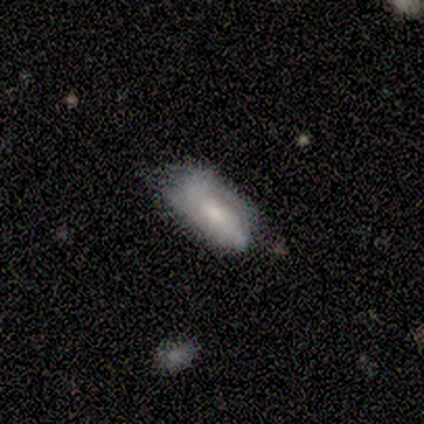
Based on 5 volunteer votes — Smooth or featured?
  - featured or disk: 60% *
  - smooth: 40%
  - star or artifact: 0%
Edge-on disk?
  - no: 100% *
  - yes: 0%
Bar?
  - no: 67% *
  - strong: 33%
  - weak: 0%
Spiral arms?
  - yes: 67% *
  - no: 33%
Spiral winding?
  - tight: 50% * (tied)
  - medium: 50% * (tied)
  - loose: 0%
Spiral arm count?
  - can't tell: 100% *
  - 1: 0%
  - 2: 0%
  - 3: 0%
  - 4: 0%
  - more than 4: 0%
Bulge size?
  - small: 100% *
  - dominant: 0%
  - large: 0%
  - moderate: 0%
  - none: 0%
Merging?
  - none: 80% *
  - major disturbance: 20%
  - minor disturbance: 0%
  - merger: 0%